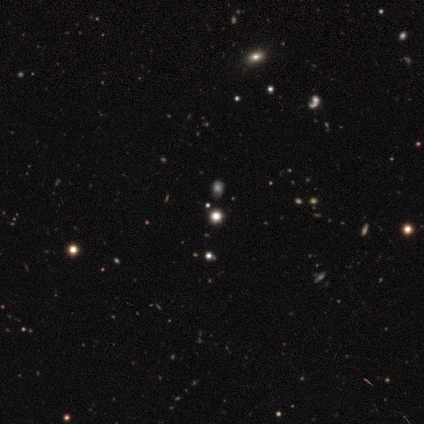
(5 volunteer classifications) Smooth or featured: smooth — 60% (star or artifact — 40%)
How rounded: round — 100%
Merging: none — 100%